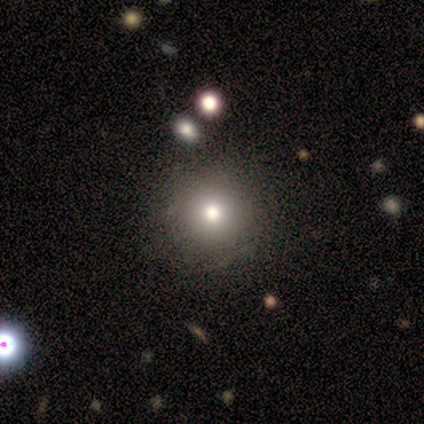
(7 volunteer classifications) This appears to be a smooth galaxy with no disk features (100%) that is round (100%). Merging: none (100%).